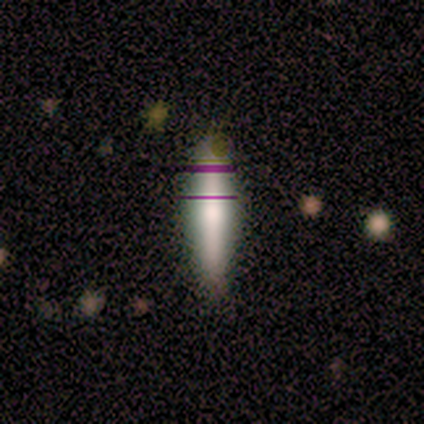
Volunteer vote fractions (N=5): Smooth or featured? smooth (60%)
How rounded? cigar-shaped (100%)
Merging? none (100%)